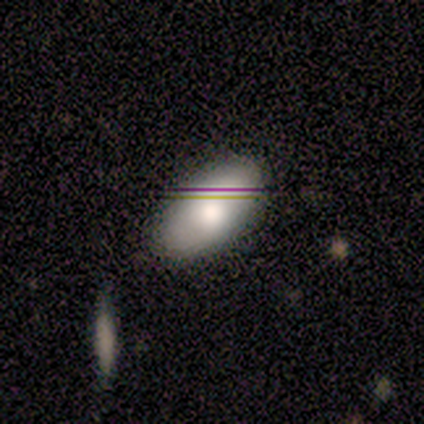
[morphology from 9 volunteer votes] This is clearly a smooth galaxy (89%). How rounded: clearly in between (88%). Merging: likely none (78%).